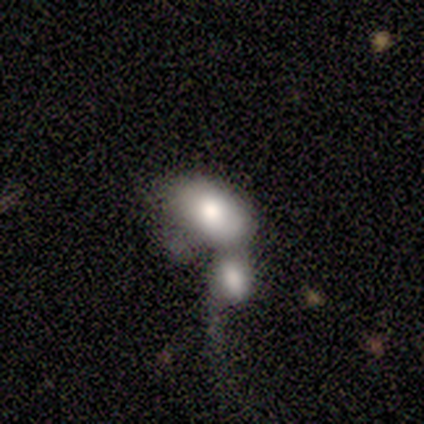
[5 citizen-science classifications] Morphology: type=smooth (60%); roundness=in between (100%); merging=merger (100%).